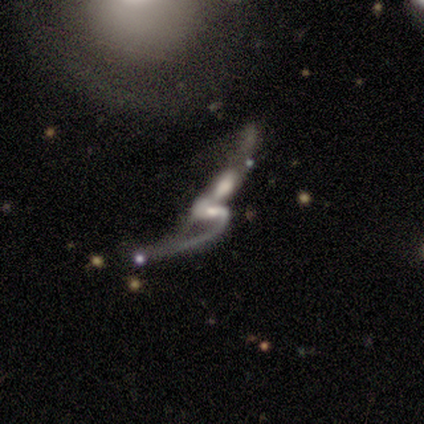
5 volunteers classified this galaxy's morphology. This appears to be a featured or disk galaxy (80%) with a weak bar (100%), 2 (100%) loose (75%) spiral arms (100%) and a moderate central bulge (50%, tied with small). Merging: major disturbance (50%, tied with merger).